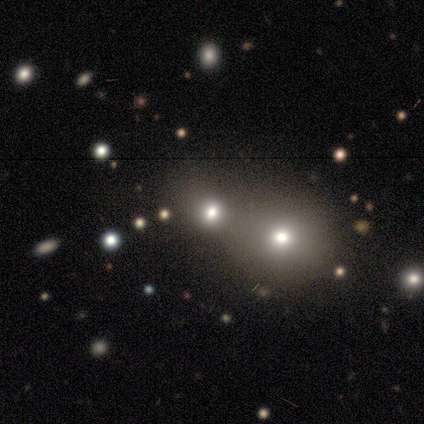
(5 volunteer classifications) Smooth or featured: smooth — 80% (star or artifact — 20%)
How rounded: round — 75% (in between — 25%)
Merging: none — 75% (major disturbance — 25%)